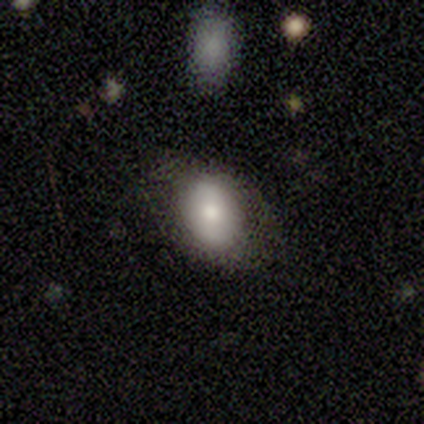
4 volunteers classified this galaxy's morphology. Overall: smooth (75%). How rounded: round (67%; in between 33%). Merging: none (50%, tied with minor disturbance).